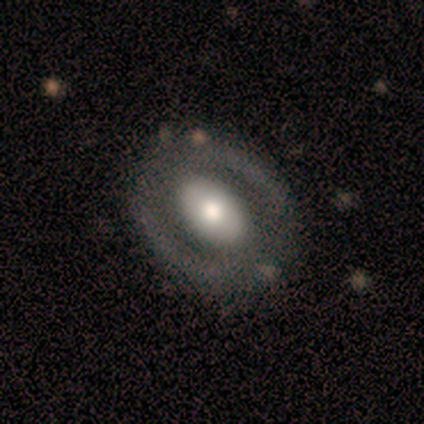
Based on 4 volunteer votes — smooth_or_featured: smooth (p=0.50) [tied with: featured or disk p=0.50]
how_rounded: round (p=1.00)
merging: none (p=0.75) [alt: minor disturbance p=0.25]